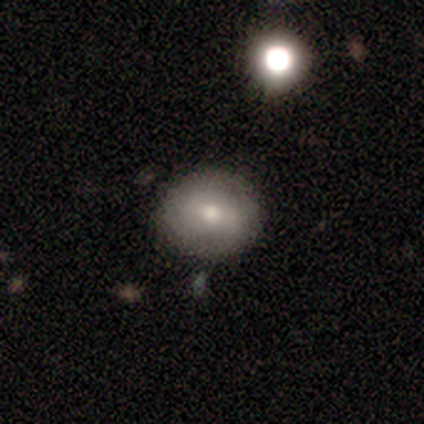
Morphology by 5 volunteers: smooth_or_featured: smooth (p=0.40) [tied with: featured or disk p=0.40]
how_rounded: round (p=1.00)
merging: none (p=1.00)